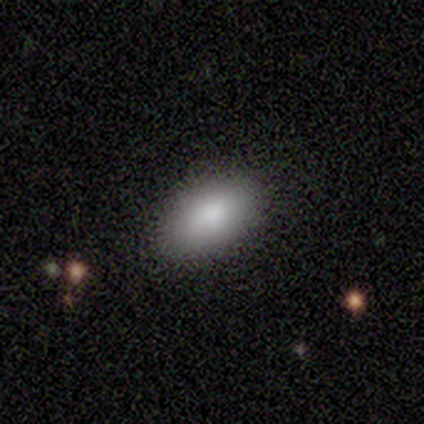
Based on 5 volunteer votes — This appears to be a smooth galaxy with no disk features (80%) that is in between round and cigar-shaped (100%). Merging: none (80%).